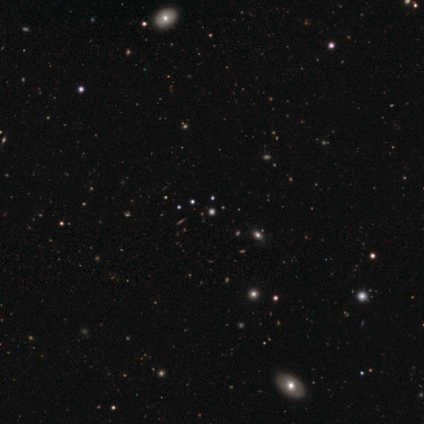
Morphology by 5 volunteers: type=star or artifact (60%).